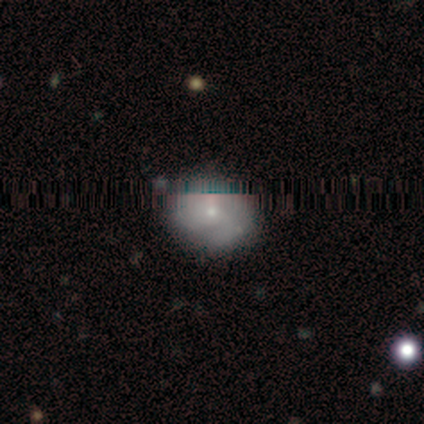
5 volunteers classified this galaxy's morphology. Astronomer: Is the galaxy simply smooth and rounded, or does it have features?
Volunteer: featured or disk — 60%.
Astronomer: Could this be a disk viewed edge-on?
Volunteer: no — 100%.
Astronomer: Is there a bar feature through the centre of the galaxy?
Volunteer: no — 100%.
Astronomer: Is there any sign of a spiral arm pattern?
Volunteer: yes — 100%.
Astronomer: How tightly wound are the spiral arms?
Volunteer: tight — 33%, tied with medium and loose at 33%.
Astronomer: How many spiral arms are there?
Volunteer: can't tell — 67%.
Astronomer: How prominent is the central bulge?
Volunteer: small — 67%.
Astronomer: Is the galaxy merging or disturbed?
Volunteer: none — 75%.